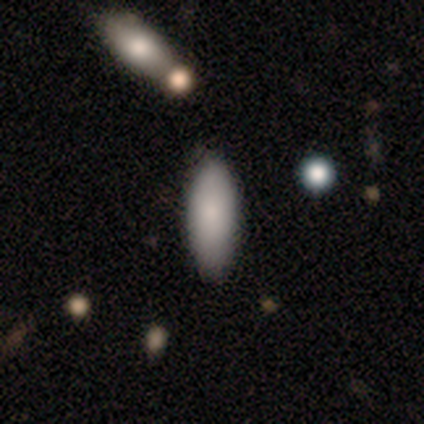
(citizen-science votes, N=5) This is clearly a smooth galaxy (80%). How rounded: clearly in between (100%). Merging: clearly none (100%).